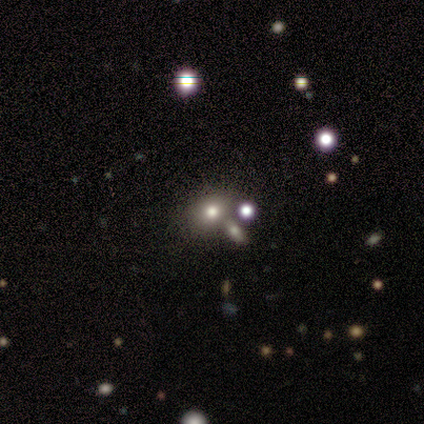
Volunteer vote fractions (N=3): A smooth galaxy with no disk features (67%) that is round (50%, tied with in between). Merging: none (100%).